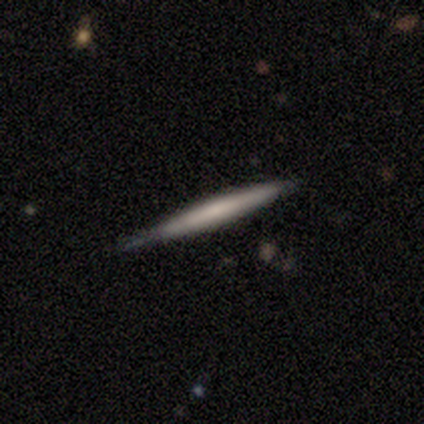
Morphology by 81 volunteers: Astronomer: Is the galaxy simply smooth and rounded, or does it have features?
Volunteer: featured or disk — 51% (runner-up: smooth, 47%).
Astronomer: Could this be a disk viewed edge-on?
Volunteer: yes — 98%.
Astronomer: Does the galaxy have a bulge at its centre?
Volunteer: none — 75%.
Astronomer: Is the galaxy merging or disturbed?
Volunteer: none — 46%.